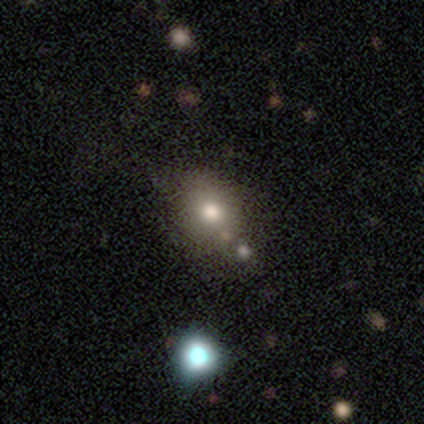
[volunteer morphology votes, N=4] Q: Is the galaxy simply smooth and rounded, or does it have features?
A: smooth — 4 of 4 (100%).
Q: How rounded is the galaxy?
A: round — 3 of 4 (75%).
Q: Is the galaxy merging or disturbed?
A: none — 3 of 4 (75%).